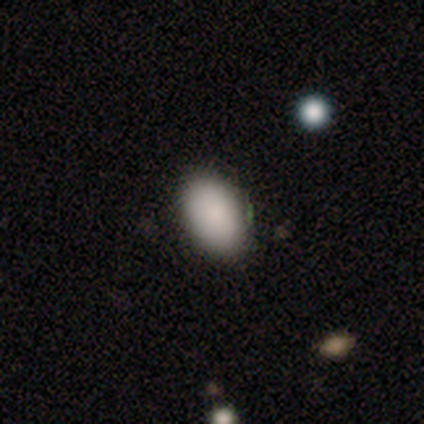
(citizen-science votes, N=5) Smooth or featured? 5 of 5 (100%) said smooth. How rounded? 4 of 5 (80%) said in between. Merging? 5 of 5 (100%) said none.